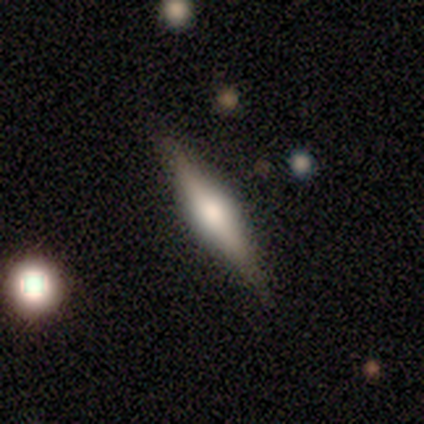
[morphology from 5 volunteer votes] smooth-or-featured: featured or disk: 100% | smooth: 0% | star or artifact: 0%
  disk-edge-on: yes: 100% | no: 0%
    edge-on-bulge: rounded: 100% | boxy: 0% | none: 0%
  merging: none: 60% | minor disturbance: 20% | major disturbance: 20% | merger: 0%